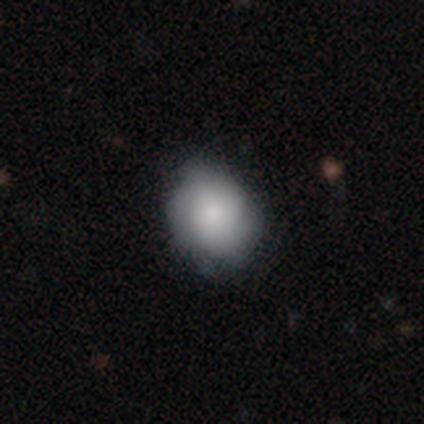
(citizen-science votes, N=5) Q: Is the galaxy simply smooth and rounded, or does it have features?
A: smooth — 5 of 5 (100%).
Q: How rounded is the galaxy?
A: round — 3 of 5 (60%).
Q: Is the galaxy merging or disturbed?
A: none — 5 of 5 (100%).